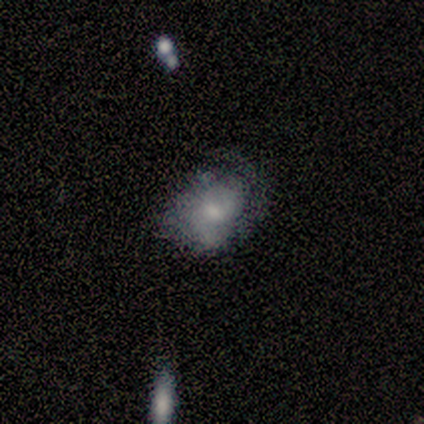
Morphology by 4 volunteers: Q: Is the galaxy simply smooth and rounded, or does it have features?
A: smooth — 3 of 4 (75%).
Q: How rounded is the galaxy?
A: in between — 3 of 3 (100%).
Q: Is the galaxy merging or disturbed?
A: none — 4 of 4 (100%).